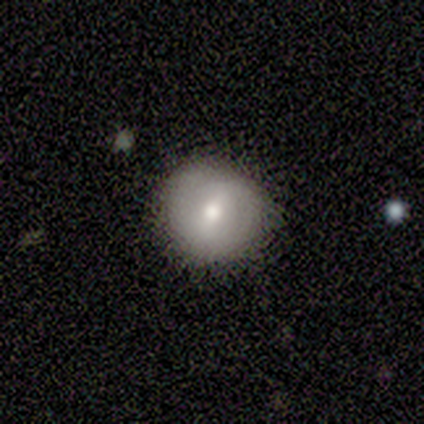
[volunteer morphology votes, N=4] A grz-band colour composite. It shows a smooth galaxy with no disk features (50%, tied with featured or disk) that is round (100%). Merging: none (75%).